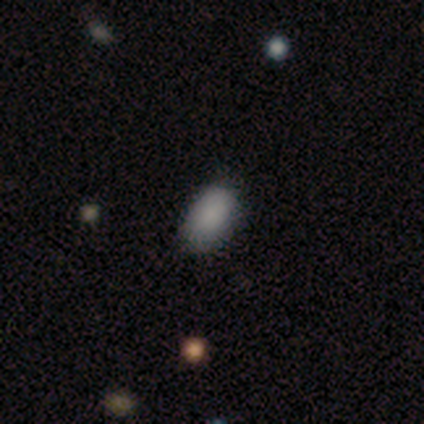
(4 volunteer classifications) smooth_or_featured: smooth (p=0.75) [alt: star or artifact p=0.25]
how_rounded: in between (p=1.00)
merging: none (p=1.00)